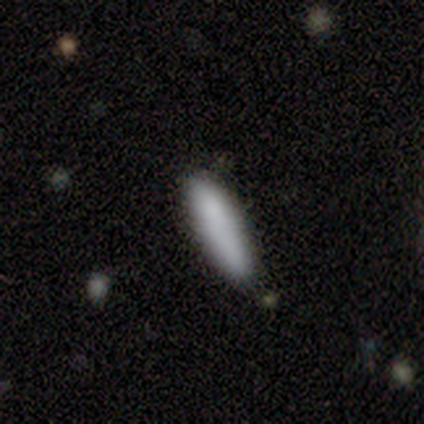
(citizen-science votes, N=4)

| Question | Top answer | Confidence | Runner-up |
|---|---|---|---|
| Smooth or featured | smooth | 100% | — |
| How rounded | cigar-shaped | 75% | in between (25%) |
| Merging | none | 75% | minor disturbance (25%) |